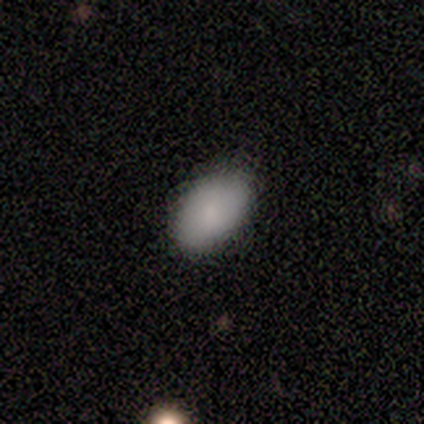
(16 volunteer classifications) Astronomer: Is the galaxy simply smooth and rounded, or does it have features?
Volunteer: smooth — 94%.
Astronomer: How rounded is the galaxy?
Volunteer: in between — 93%.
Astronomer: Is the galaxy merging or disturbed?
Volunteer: none — 93%.